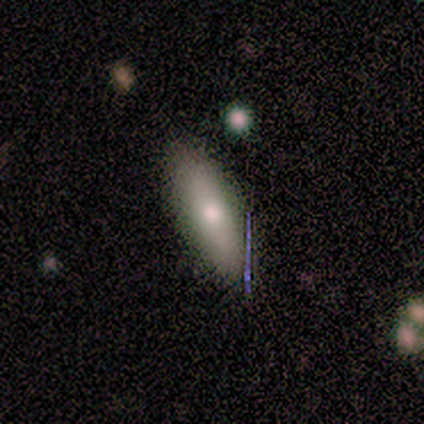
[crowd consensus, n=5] smooth_or_featured: smooth (p=0.40) [tied with: featured or disk p=0.40]
how_rounded: cigar-shaped (p=1.00)
merging: none (p=0.75) [alt: merger p=0.25]